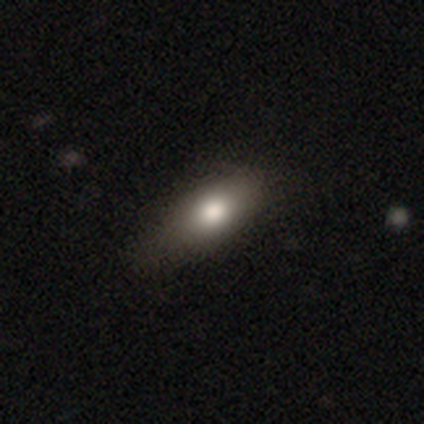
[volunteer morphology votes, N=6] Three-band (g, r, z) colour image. It shows a smooth galaxy with no disk features (83%) that is in between round and cigar-shaped (100%). Merging: none (67%).